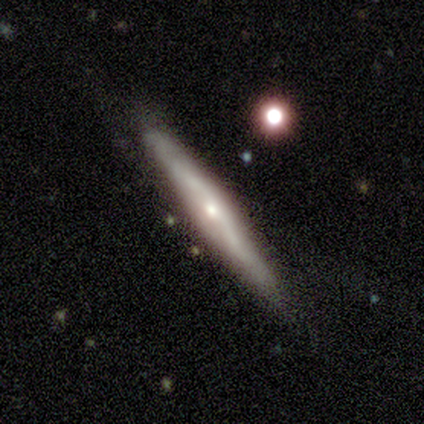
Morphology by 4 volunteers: Smooth or featured?
  - featured or disk: 100% *
  - smooth: 0%
  - star or artifact: 0%
Edge-on disk?
  - yes: 100% *
  - no: 0%
Edge-on bulge?
  - rounded: 75% *
  - none: 25%
  - boxy: 0%
Merging?
  - none: 75% *
  - minor disturbance: 25%
  - major disturbance: 0%
  - merger: 0%